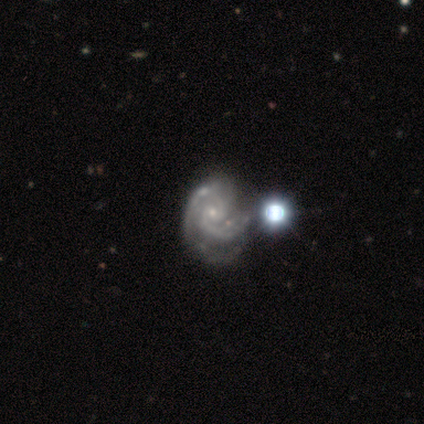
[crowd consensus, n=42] Q: Smooth or featured?
A: featured or disk (86%); runner-up: star or artifact (10%)
Q: Edge-on disk?
A: no (100%)
Q: Bar?
A: no (78%); runner-up: weak (22%)
Q: Spiral arms?
A: yes (100%)
Q: Spiral winding?
A: tight (61%); runner-up: medium (36%)
Q: Spiral arm count?
A: 2 (81%); runner-up: 3 (8%)
Q: Bulge size?
A: small (89%); runner-up: none (8%)
Q: Merging?
A: none (39%); runner-up: major disturbance (24%)